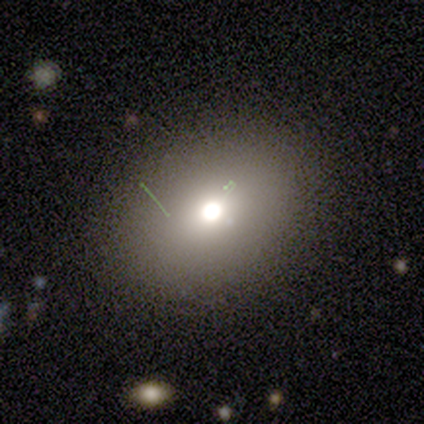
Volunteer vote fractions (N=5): Morphology: type=smooth (60%); roundness=in between (67%); merging=none (100%).